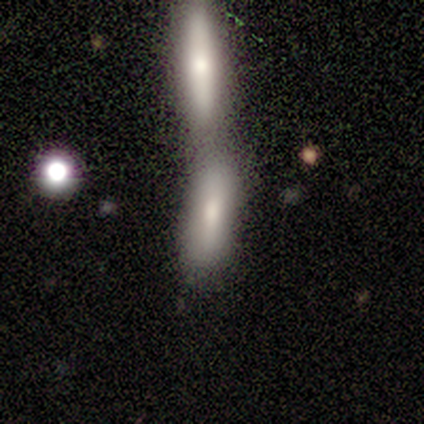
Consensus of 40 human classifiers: smooth 78%, featured or disk 18%, star or artifact 5%. Down the decision tree: how rounded — cigar-shaped (55%); merging — merger (68%).